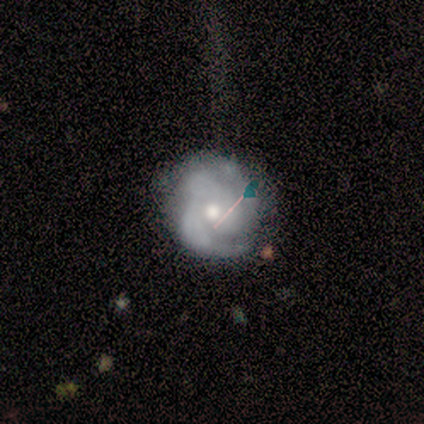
Smooth or featured? 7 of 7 (100%) said featured or disk. Edge-on disk? 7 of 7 (100%) said no. Bar? 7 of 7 (100%) said no. Spiral arms? 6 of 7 (86%) said yes. Spiral winding? 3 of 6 (50%) said medium. Spiral arm count? 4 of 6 (67%) said 2. Bulge size? 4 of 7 (57%) said moderate. Merging? 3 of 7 (43%, tied with minor disturbance) said none.